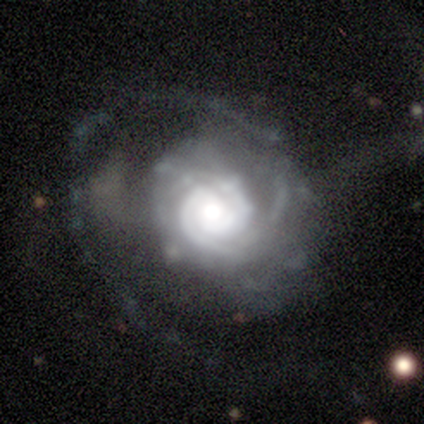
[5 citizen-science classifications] smooth_or_featured: featured or disk (p=0.80) [alt: smooth p=0.20]
disk_edge_on: no (p=1.00)
bar: no (p=1.00)
has_spiral_arms: yes (p=1.00)
spiral_winding: tight (p=1.00)
spiral_arm_count: 2 (p=0.50) [alt: 1 p=0.25]
bulge_size: moderate (p=1.00)
merging: none (p=0.40) [tied with: major disturbance p=0.40]